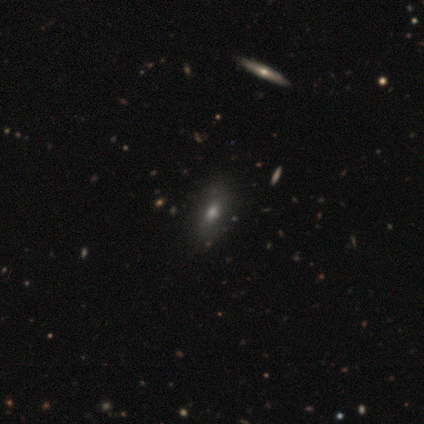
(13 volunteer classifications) This is likely a smooth galaxy (62%). How rounded: likely in between (62%). Merging: clearly none (92%).